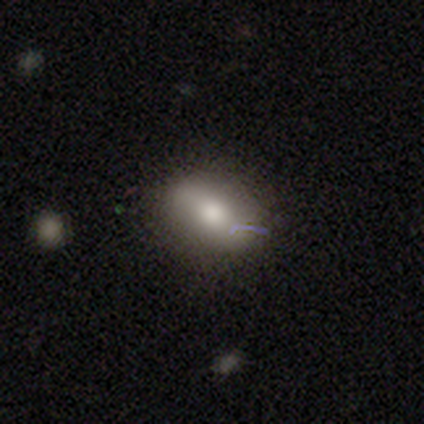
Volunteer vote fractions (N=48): smooth_or_featured: smooth (p=0.75) [alt: featured or disk p=0.19]
how_rounded: in between (p=0.75) [alt: round p=0.19]
merging: none (p=0.78) [alt: minor disturbance p=0.16]